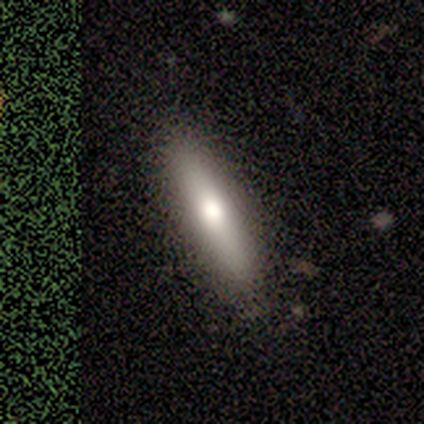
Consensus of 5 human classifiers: Overall: smooth (80%). How rounded: cigar-shaped (75%). Merging: none (80%).